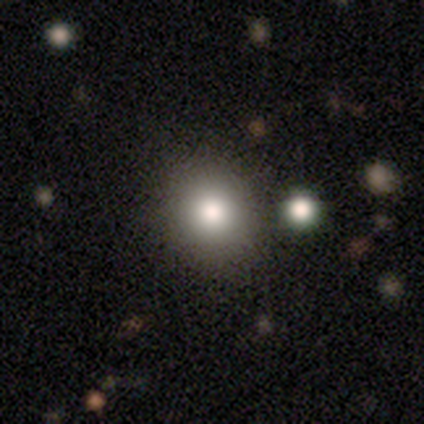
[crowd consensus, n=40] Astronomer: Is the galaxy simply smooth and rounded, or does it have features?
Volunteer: smooth — 80%.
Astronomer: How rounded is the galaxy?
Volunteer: round — 72%.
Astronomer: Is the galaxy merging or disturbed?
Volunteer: none — 78%.